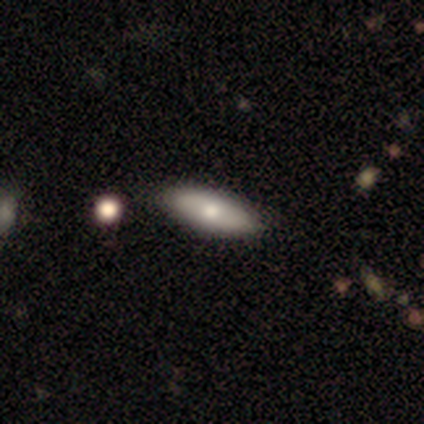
Smooth or featured: smooth — 100%
How rounded: cigar-shaped — 60% (in between — 40%)
Merging: none — 100%